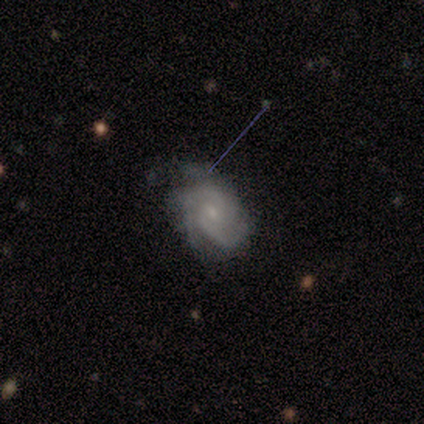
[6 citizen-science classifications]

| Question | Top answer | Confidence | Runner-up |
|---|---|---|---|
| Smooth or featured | featured or disk | 100% | — |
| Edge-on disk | no | 100% | — |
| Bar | no | 83% | weak (17%) |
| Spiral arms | yes | 100% | — |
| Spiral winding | tight | 50% | tied: medium (50%) |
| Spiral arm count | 2 | 33% | tied: 3 (33%) |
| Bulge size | small | 67% | moderate (33%) |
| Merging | none | 67% | minor disturbance (33%) |